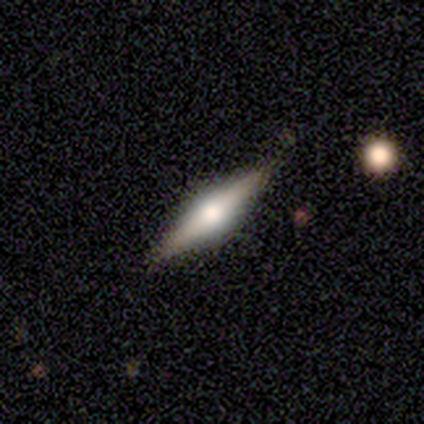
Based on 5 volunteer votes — A featured or disk galaxy (100%) viewed edge-on (100%) with a rounded central bulge (100%).

Vote fractions:
- Smooth or featured? featured or disk: 100% / smooth: 0% / star or artifact: 0%
- Edge-on disk? yes: 100% / no: 0%
- Edge-on bulge? rounded: 100% / boxy: 0% / none: 0%
- Merging? none: 100% / minor disturbance: 0% / major disturbance: 0% / merger: 0%